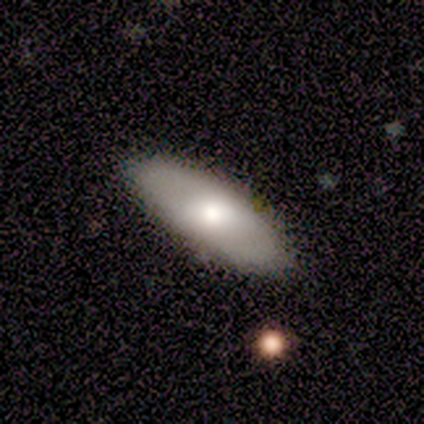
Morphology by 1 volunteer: Smooth or featured: smooth — 100%
How rounded: in between — 100%
Merging: none — 100%